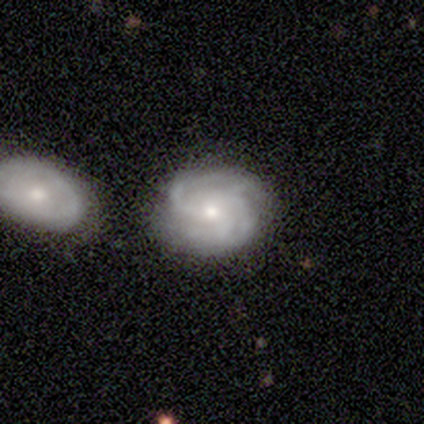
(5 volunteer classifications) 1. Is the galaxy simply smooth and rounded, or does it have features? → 100% featured or disk, 0% smooth, 0% star or artifact.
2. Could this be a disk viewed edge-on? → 100% no, 0% yes.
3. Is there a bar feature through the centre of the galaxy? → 80% no, 20% weak, 0% strong.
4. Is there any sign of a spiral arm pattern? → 100% yes, 0% no.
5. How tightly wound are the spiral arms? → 60% tight, 40% medium, 0% loose.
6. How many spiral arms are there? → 40% 4, 20% 2, 20% 3, 20% can't tell, 0% 1, 0% more than 4.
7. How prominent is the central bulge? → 60% moderate, 40% small, 0% dominant, 0% large, 0% none.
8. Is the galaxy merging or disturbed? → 100% none, 0% minor disturbance, 0% major disturbance, 0% merger.